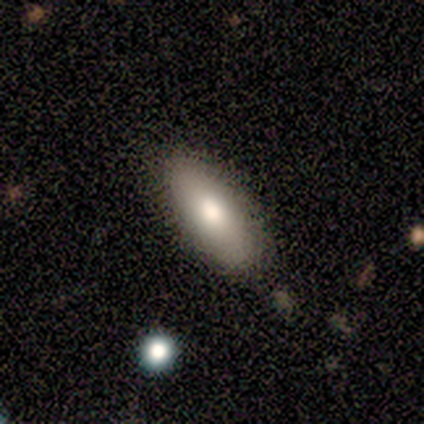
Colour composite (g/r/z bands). It shows a smooth galaxy with no disk features (75%) that is in between round and cigar-shaped (100%). Merging: none (100%).